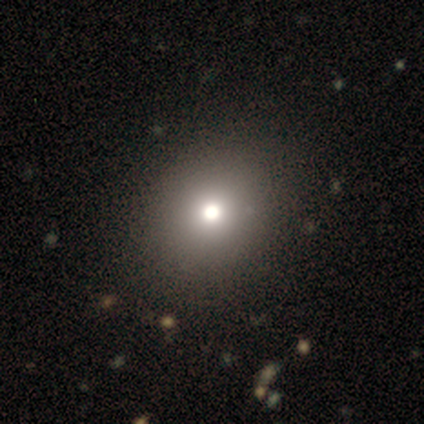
smooth 57%, star or artifact 29%, featured or disk 14%. Down the decision tree: how rounded — round (75%); merging — none (90%).